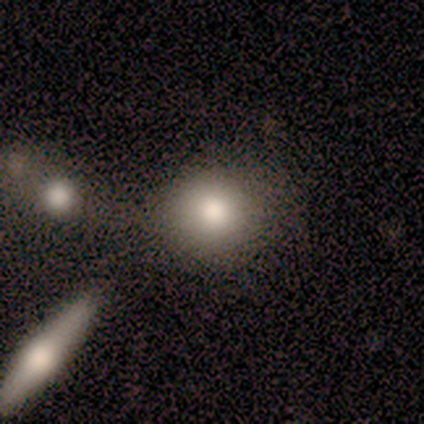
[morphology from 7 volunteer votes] smooth-or-featured: smooth: 100% | featured or disk: 0% | star or artifact: 0%
  how-rounded: round: 86% | in between: 14% | cigar-shaped: 0%
  merging: none: 71% | minor disturbance: 14% | merger: 14% | major disturbance: 0%